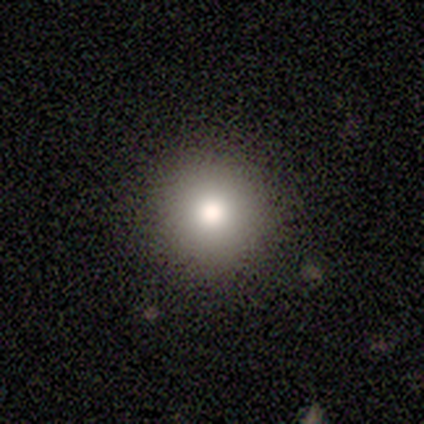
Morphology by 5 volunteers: Consensus on every question: smooth or featured — smooth (100%); how rounded — round (100%); merging — none (100%).